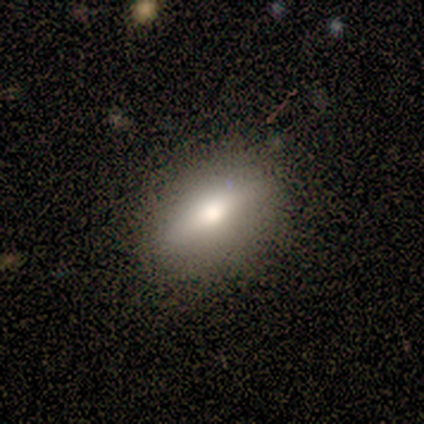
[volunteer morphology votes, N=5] Volunteers were most divided on "smooth or featured": featured or disk: 60%, smooth: 40%, star or artifact: 0%. More confident: edge-on disk — yes (100%); merging — none (100%); edge-on bulge — rounded (67%).